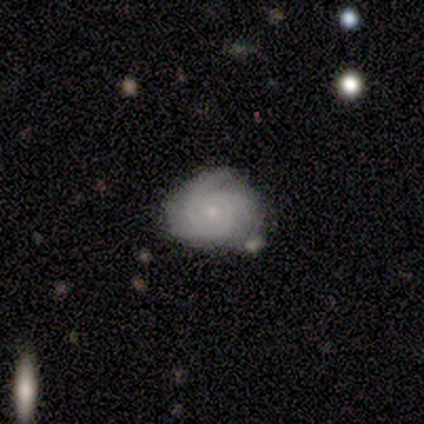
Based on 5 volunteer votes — Smooth or featured?
  - smooth: 40% * (tied)
  - featured or disk: 40% * (tied)
  - star or artifact: 20%
How rounded?
  - in between: 100% *
  - round: 0%
  - cigar-shaped: 0%
Merging?
  - none: 25% * (tied)
  - minor disturbance: 25% * (tied)
  - major disturbance: 25% * (tied)
  - merger: 25% * (tied)